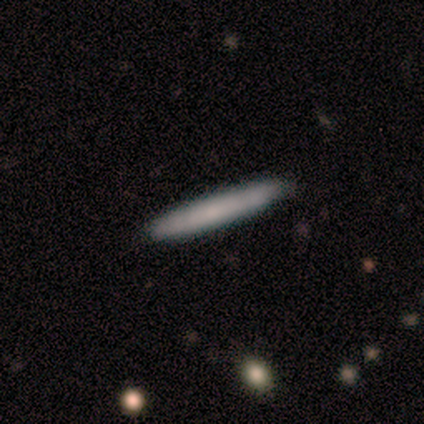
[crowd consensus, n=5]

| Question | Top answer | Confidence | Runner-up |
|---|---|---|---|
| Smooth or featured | smooth | 80% | featured or disk (20%) |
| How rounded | cigar-shaped | 100% | — |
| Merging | none | 80% | minor disturbance (20%) |